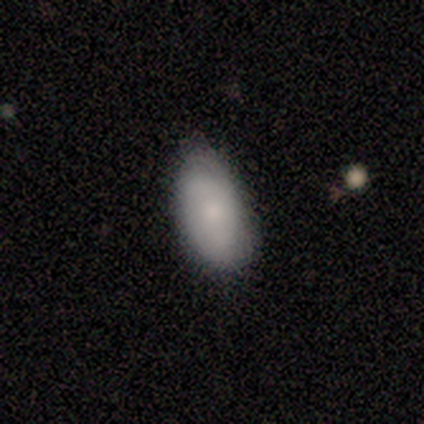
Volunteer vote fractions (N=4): Overall: smooth (50%, tied with featured or disk). How rounded: in between (100%). Merging: none (75%).